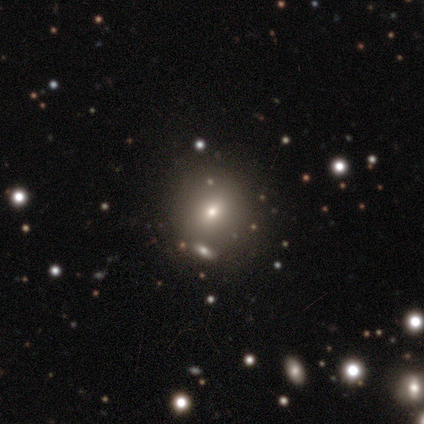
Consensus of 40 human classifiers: smooth-or-featured: smooth: 72% | star or artifact: 18% | featured or disk: 10%
  how-rounded: round: 90% | in between: 10% | cigar-shaped: 0%
  merging: none: 64% | merger: 12% | major disturbance: 3% | minor disturbance: 0%